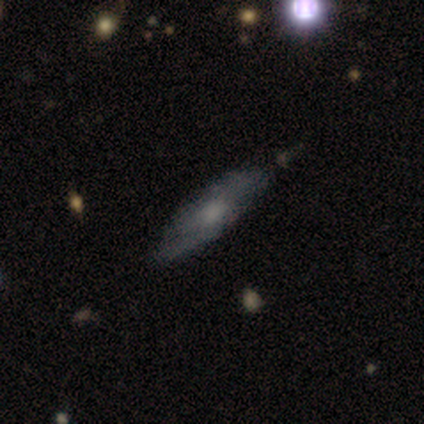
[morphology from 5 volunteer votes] featured or disk 60%, smooth 40%, star or artifact 0%. Down the decision tree: edge-on disk — no (67%); bar — no (100%); spiral arms — yes (100%); spiral arm count — can't tell (100%); spiral winding — medium (100%); bulge size — moderate (50%, tied with small); merging — none (60%).